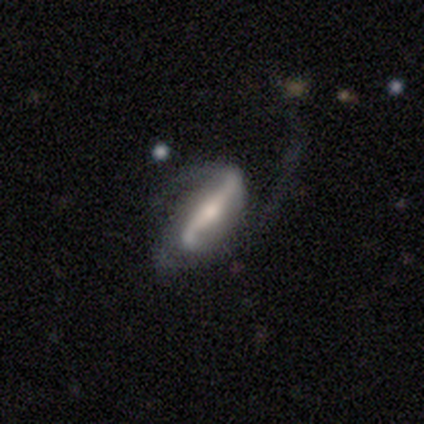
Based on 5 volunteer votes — Smooth or featured? featured or disk (100%)
Edge-on disk? no (80%)
Bar? strong (100%)
Spiral arms? yes (75%)
Spiral winding? loose (100%)
Spiral arm count? 2 (67%)
Bulge size? small (75%)
Merging? major disturbance (60%)